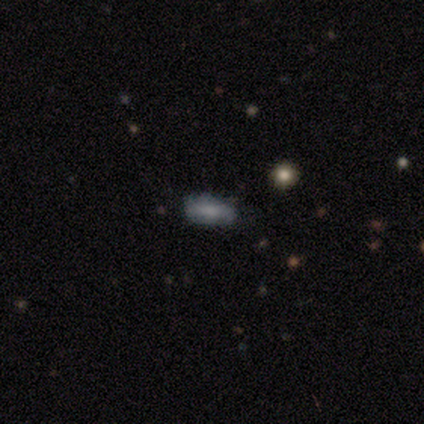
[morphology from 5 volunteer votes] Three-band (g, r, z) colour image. It shows a smooth galaxy with no disk features (100%) that is in between round and cigar-shaped (80%). Merging: none (80%).